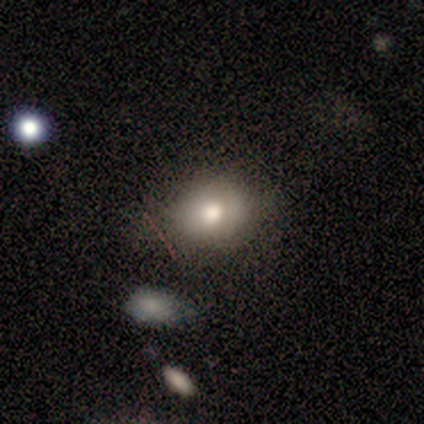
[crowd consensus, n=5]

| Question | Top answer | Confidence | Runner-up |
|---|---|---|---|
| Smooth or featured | smooth | 100% | — |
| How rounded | round | 80% | in between (20%) |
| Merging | none | 80% | minor disturbance (20%) |